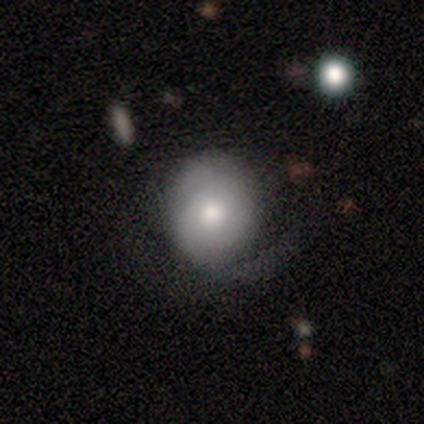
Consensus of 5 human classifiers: Smooth or featured? 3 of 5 (60%) said featured or disk. Edge-on disk? 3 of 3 (100%) said no. Bar? 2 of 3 (67%) said no. Spiral arms? 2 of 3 (67%) said yes. Spiral winding? 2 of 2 (100%) said medium. Spiral arm count? 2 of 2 (100%) said 2. Bulge size? 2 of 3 (67%) said moderate. Merging? 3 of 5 (60%) said minor disturbance.